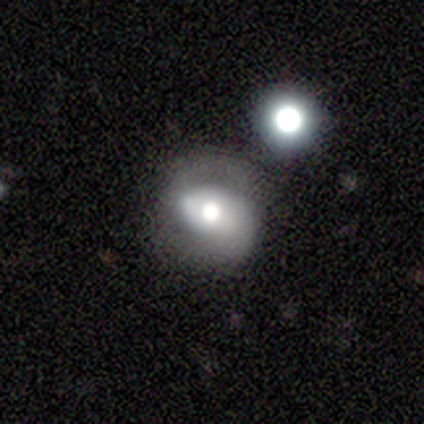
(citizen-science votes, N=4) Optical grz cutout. It shows a featured or disk galaxy (100%) with a weak bar (100%), 2 (67%) loose (67%) spiral arms (100%) and a dominant central bulge (33%, tied with large and small). Merging: none (50%).